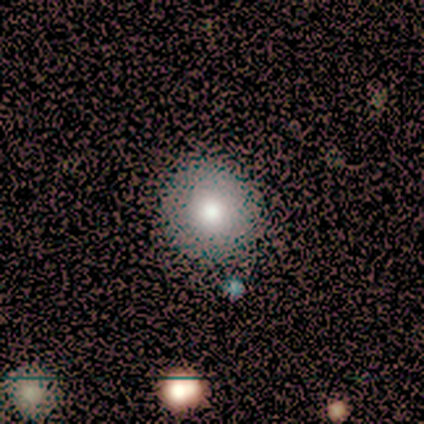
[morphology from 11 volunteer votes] Overall: smooth (100%). How rounded: round (100%). Merging: none (100%).